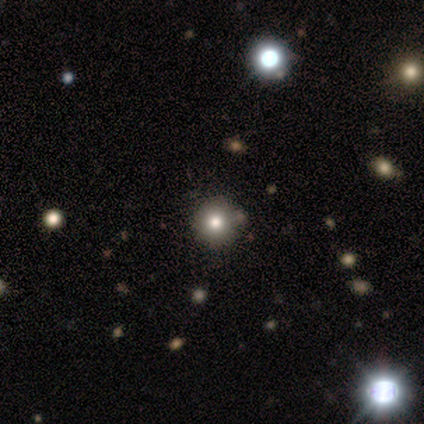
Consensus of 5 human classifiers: Volunteers were most divided on "smooth or featured": smooth: 60%, star or artifact: 40%, featured or disk: 0%. More confident: how rounded — round (100%); merging — none (100%).